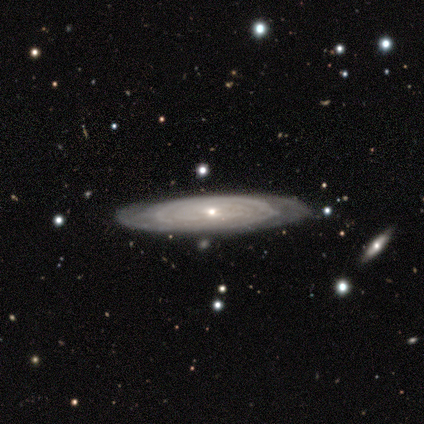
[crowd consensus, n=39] Morphology: type=featured or disk (90%); edge-on=no (57%); bar=no (85%); spiral arms=yes (100%); winding=tight (75%); arm count=can't tell (65%); bulge=small (90%); merging=none (82%).